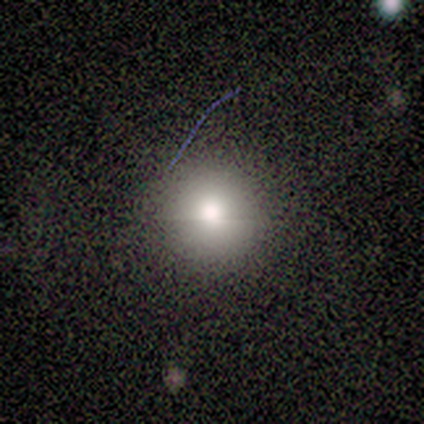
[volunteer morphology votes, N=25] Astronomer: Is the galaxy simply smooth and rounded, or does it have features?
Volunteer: smooth — 56%.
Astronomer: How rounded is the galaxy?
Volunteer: round — 100%.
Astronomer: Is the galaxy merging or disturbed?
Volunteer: none — 94%.